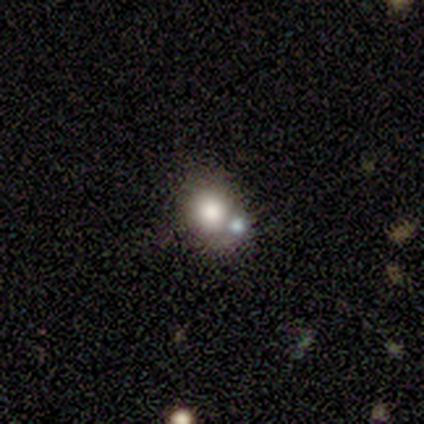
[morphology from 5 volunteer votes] Overall: smooth (60%; featured or disk 20%). How rounded: in between (67%; round 33%). Merging: merger (50%; none 25%).